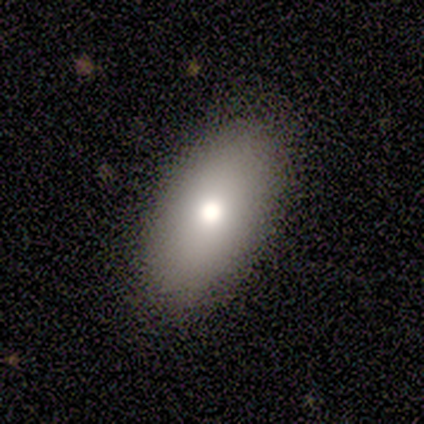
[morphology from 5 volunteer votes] Smooth or featured?
  - smooth: 80% *
  - featured or disk: 20%
  - star or artifact: 0%
How rounded?
  - in between: 100% *
  - round: 0%
  - cigar-shaped: 0%
Merging?
  - none: 100% *
  - minor disturbance: 0%
  - major disturbance: 0%
  - merger: 0%